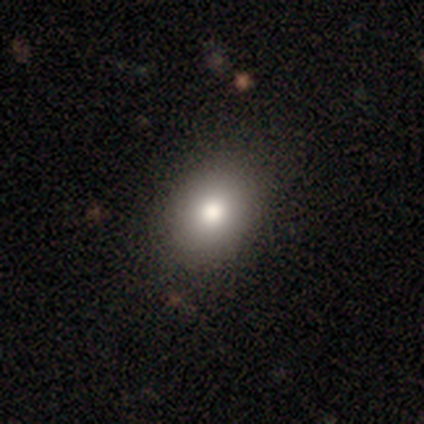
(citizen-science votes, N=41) smooth_or_featured: smooth (p=0.76) [alt: featured or disk p=0.12]
how_rounded: in between (p=0.61) [alt: round p=0.39]
merging: none (p=0.89) [alt: minor disturbance p=0.11]